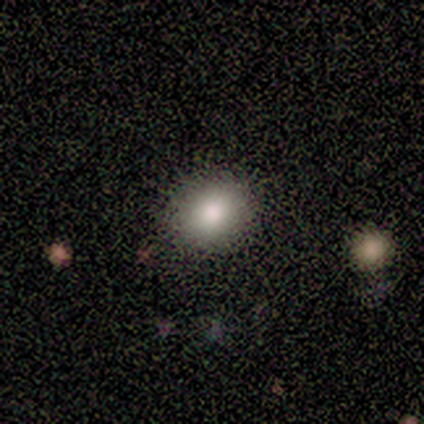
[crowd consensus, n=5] Smooth or featured? smooth (80%)
How rounded? round (100%)
Merging? none (100%)